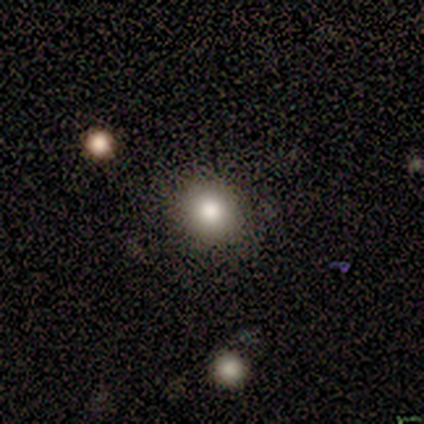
smooth-or-featured: smooth: 100% | featured or disk: 0% | star or artifact: 0%
  how-rounded: round: 100% | in between: 0% | cigar-shaped: 0%
  merging: none: 100% | minor disturbance: 0% | major disturbance: 0% | merger: 0%